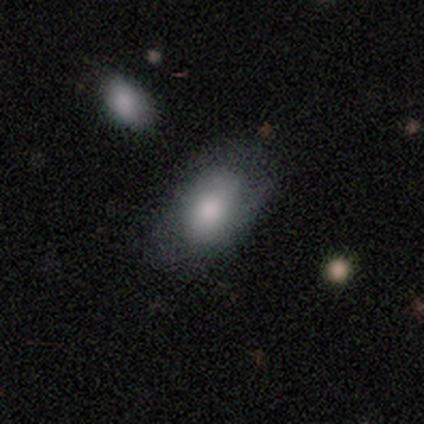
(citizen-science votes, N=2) Morphology: type=smooth (50%, tied with featured or disk); roundness=in between (100%); merging=minor disturbance (50%, tied with major disturbance).